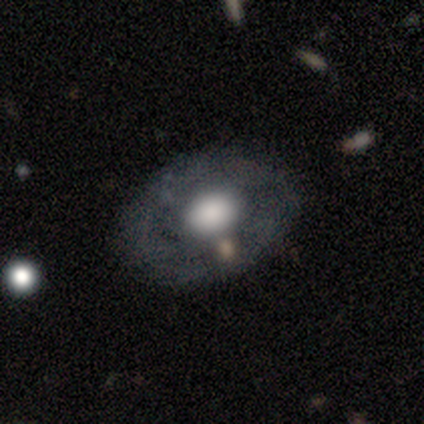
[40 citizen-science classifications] Overall: featured or disk (50%; smooth 42%). Edge-on disk: no (90%). Bar: no (89%). Spiral arms: no (78%). Bulge size: large (61%). Merging: none (73%).